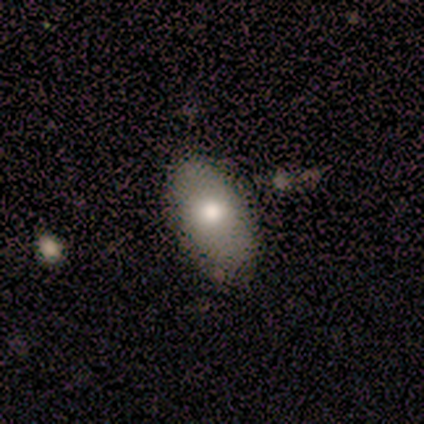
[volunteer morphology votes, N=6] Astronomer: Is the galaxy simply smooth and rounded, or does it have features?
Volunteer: smooth — 83%.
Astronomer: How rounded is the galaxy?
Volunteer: in between — 80%.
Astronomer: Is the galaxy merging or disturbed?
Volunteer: none — 67%.